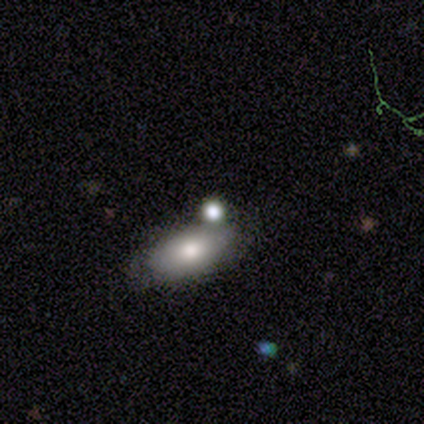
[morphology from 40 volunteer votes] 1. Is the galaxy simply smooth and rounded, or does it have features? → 68% smooth, 18% star or artifact, 15% featured or disk.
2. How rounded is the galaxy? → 85% in between, 11% round, 4% cigar-shaped.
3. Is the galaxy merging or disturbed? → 55% none, 24% minor disturbance, 15% merger, 6% major disturbance.